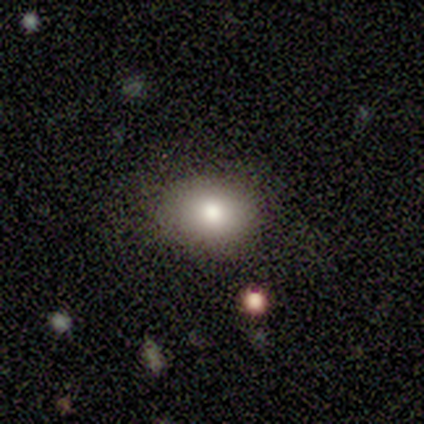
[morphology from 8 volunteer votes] Volunteers were most divided on "how rounded": round: 57%, in between: 43%, cigar-shaped: 0%. More confident: smooth or featured — smooth (88%); merging — none (86%).